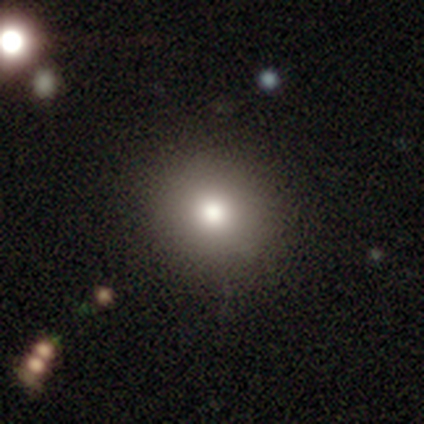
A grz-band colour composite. It shows a smooth galaxy with no disk features (72%) that is round (90%). Merging: none (94%).